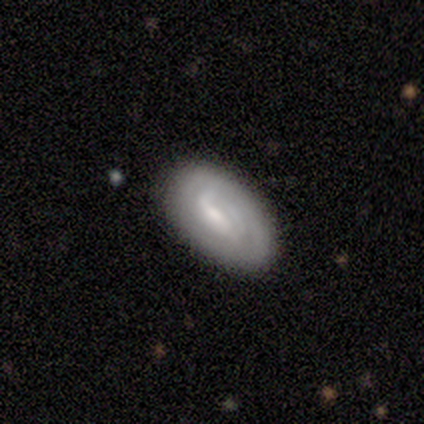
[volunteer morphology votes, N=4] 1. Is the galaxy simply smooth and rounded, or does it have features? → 50% featured or disk, 25% smooth, 25% star or artifact.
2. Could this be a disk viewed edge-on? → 50% yes (tied), 50% no (tied).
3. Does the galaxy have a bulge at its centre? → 100% boxy, 0% none, 0% rounded.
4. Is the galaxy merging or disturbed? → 67% none, 33% minor disturbance, 0% major disturbance, 0% merger.